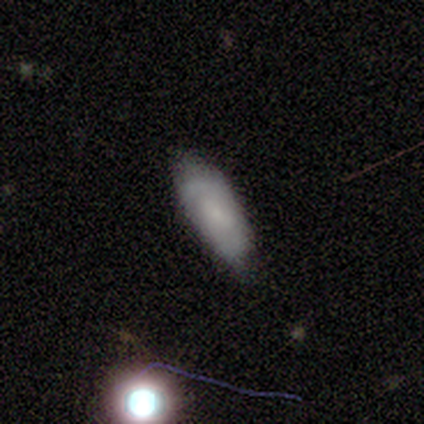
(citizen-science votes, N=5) smooth_or_featured: smooth (p=0.60) [alt: featured or disk p=0.40]
how_rounded: cigar-shaped (p=0.67) [alt: in between p=0.33]
merging: none (p=0.60) [alt: minor disturbance p=0.40]